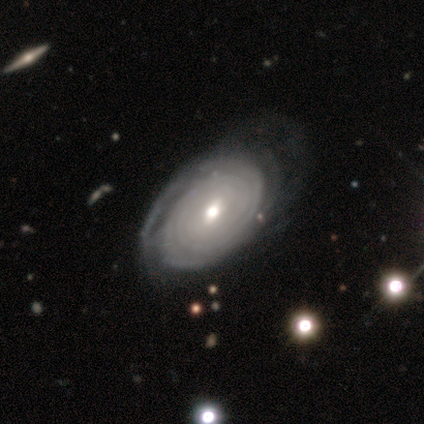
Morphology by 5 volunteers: type=featured or disk (80%); edge-on=no (100%); bar=no (100%); spiral arms=yes (75%); winding=tight (67%); arm count=can't tell (67%); bulge=moderate (50%, tied with small); merging=none (75%).